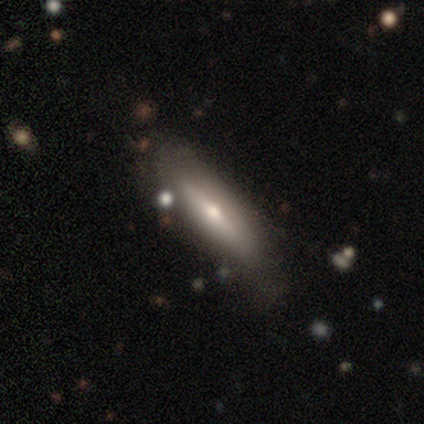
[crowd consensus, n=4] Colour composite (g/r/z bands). It shows a smooth galaxy with no disk features (75%) that is in between round and cigar-shaped (100%). Merging: none (75%).